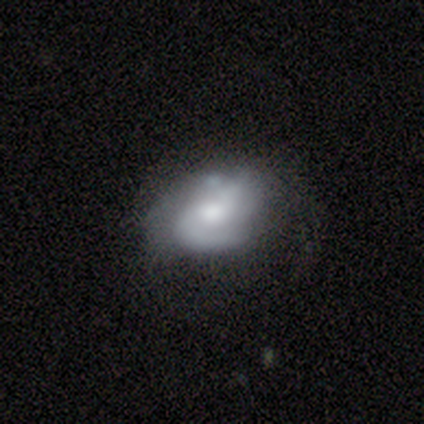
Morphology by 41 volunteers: A featured or disk galaxy (85%) with no bar (68%), 2 (43%) medium (57%) spiral arms (88%) and a moderate central bulge (62%). Merging: none (32%).